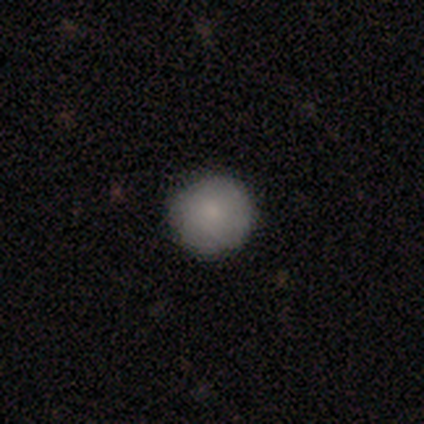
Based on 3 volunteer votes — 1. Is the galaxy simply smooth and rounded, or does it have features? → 100% smooth, 0% featured or disk, 0% star or artifact.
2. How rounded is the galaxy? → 67% round, 33% in between, 0% cigar-shaped.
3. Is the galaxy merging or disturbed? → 67% none, 33% minor disturbance, 0% major disturbance, 0% merger.